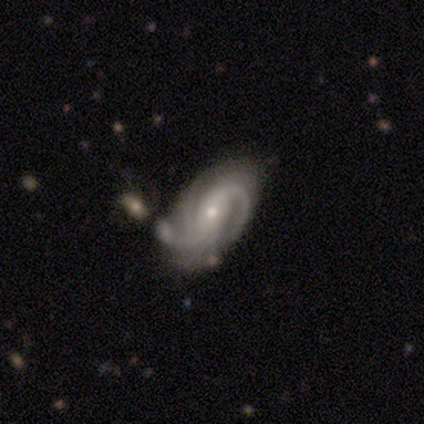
featured or disk 95%, smooth 5%, star or artifact 0%. Down the decision tree: edge-on disk — no (94%); bar — no (38%); spiral arms — yes (97%); spiral arm count — 2 (48%); spiral winding — tight (52%); bulge size — small (74%); merging — none (50%).